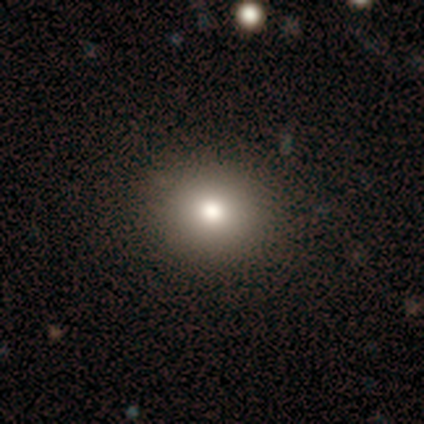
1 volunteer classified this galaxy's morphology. type=smooth (100%); roundness=round (100%); merging=none (100%).